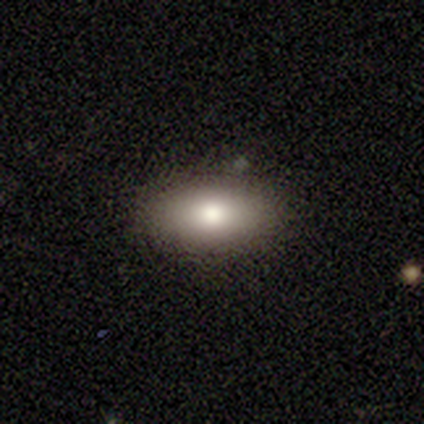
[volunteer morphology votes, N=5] type=smooth (100%); roundness=in between (80%); merging=none (60%).